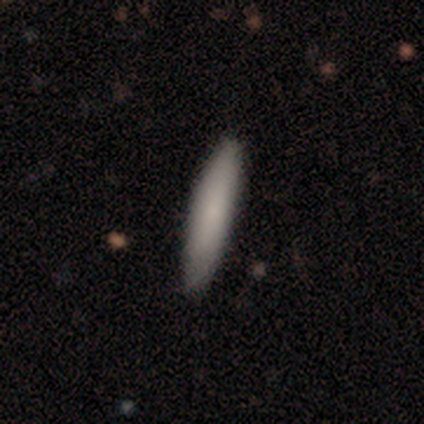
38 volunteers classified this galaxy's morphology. Smooth or featured?
  - smooth: 68% *
  - featured or disk: 26%
  - star or artifact: 5%
How rounded?
  - cigar-shaped: 92% *
  - in between: 8%
  - round: 0%
Merging?
  - none: 69% *
  - minor disturbance: 6%
  - major disturbance: 3%
  - merger: 0%